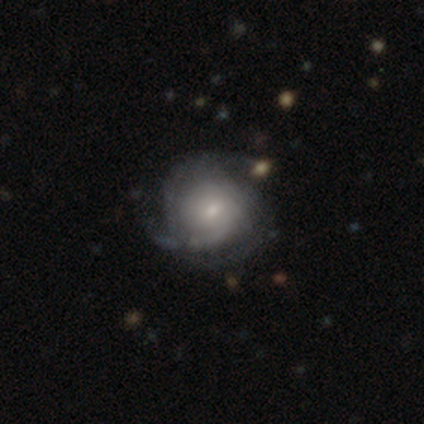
smooth_or_featured: featured or disk (p=0.75) [alt: smooth p=0.20]
disk_edge_on: no (p=1.00)
bar: no (p=0.60) [alt: weak p=0.40]
has_spiral_arms: yes (p=0.93) [alt: no p=0.07]
spiral_winding: tight (p=0.57) [alt: medium p=0.29]
spiral_arm_count: can't tell (p=0.54) [alt: 3 p=0.29]
bulge_size: small (p=0.60) [alt: moderate p=0.37]
merging: none (p=0.55) [alt: minor disturbance p=0.24]